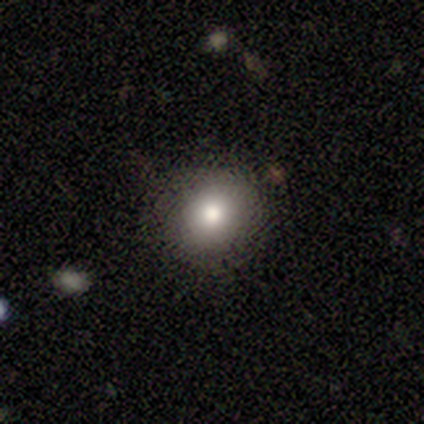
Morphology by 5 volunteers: A smooth galaxy with no disk features (100%) that is round (60%). Merging: none (60%).